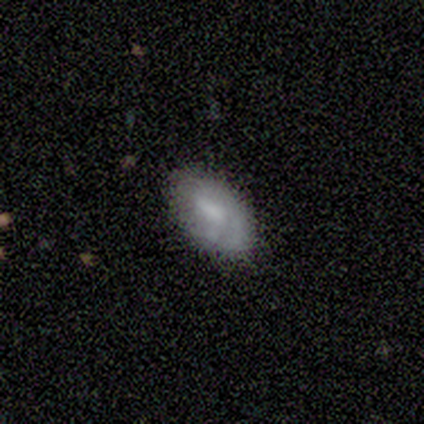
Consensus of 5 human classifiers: Volunteers were most divided on "smooth or featured" (2-way tie): smooth: 40%, featured or disk: 40%, star or artifact: 20%. More confident: how rounded — in between (100%); merging — none (75%).